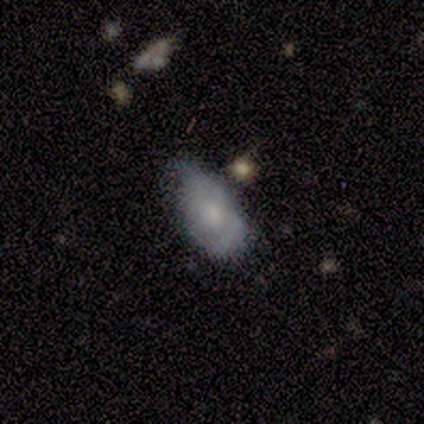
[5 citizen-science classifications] smooth_or_featured: featured or disk (p=0.60) [alt: smooth p=0.40]
disk_edge_on: no (p=1.00)
bar: no (p=1.00)
has_spiral_arms: yes (p=0.67) [alt: no p=0.33]
spiral_winding: medium (p=0.50) [tied with: loose p=0.50]
spiral_arm_count: 2 (p=1.00)
bulge_size: moderate (p=0.67) [alt: small p=0.33]
merging: minor disturbance (p=0.60) [alt: none p=0.20]